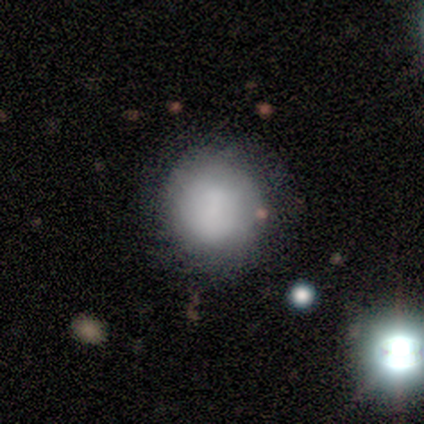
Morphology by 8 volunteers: type=smooth (100%); roundness=round (75%); merging=none (88%).